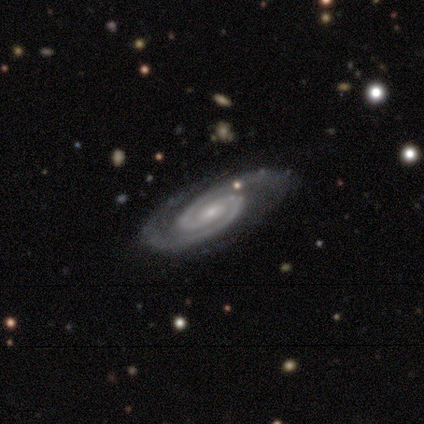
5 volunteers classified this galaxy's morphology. A featured or disk galaxy (80%) with a weak bar (50%, tied with no), 2 (100%) tight (100%) spiral arms (100%) and a small central bulge (50%).

Vote fractions:
- Smooth or featured? featured or disk: 80% / smooth: 20% / star or artifact: 0%
- Edge-on disk? no: 100% / yes: 0%
- Bar? weak: 50% (tied) / no: 50% (tied) / strong: 0%
- Spiral arms? yes: 100% / no: 0%
- Spiral winding? tight: 100% / medium: 0% / loose: 0%
- Spiral arm count? 2: 100% / 1: 0% / 3: 0% / 4: 0% / more than 4: 0% / can't tell: 0%
- Bulge size? small: 50% / large: 25% / moderate: 25% / dominant: 0% / none: 0%
- Merging? none: 100% / minor disturbance: 0% / major disturbance: 0% / merger: 0%